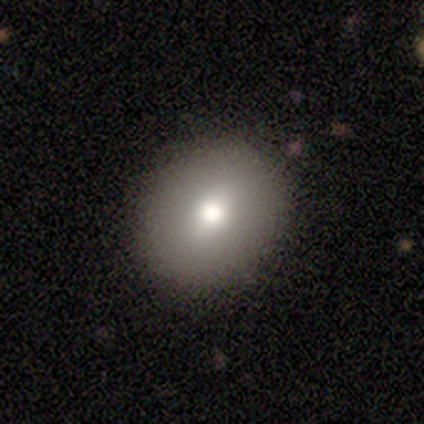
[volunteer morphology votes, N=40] Q: Smooth or featured?
A: smooth (62%); runner-up: featured or disk (30%)
Q: How rounded?
A: in between (52%); runner-up: round (48%)
Q: Merging?
A: none (100%)